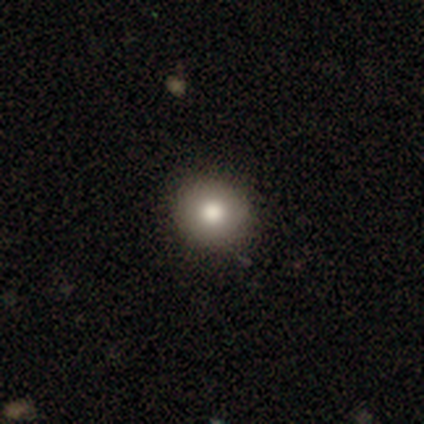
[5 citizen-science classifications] smooth_or_featured: smooth (p=0.60) [alt: featured or disk p=0.20]
how_rounded: round (p=1.00)
merging: none (p=1.00)